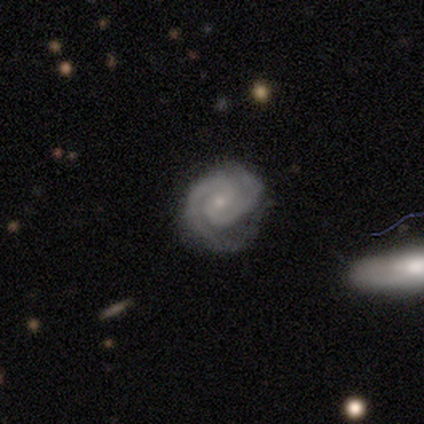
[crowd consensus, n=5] This appears to be a featured or disk galaxy (100%) with a weak bar (80%), 2 (100%) tight (80%) spiral arms (100%) and a small central bulge (100%). Merging: none (60%).